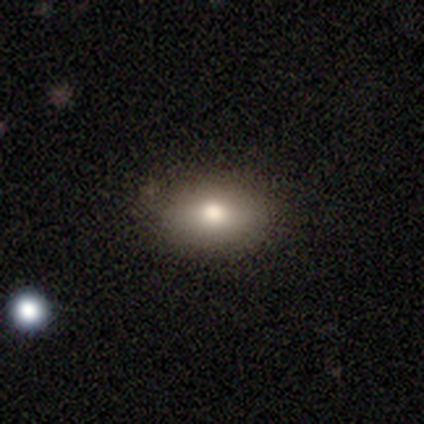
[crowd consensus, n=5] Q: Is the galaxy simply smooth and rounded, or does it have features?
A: smooth — 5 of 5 (100%).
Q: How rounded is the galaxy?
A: in between — 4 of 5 (80%).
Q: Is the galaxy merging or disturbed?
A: none — 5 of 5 (100%).